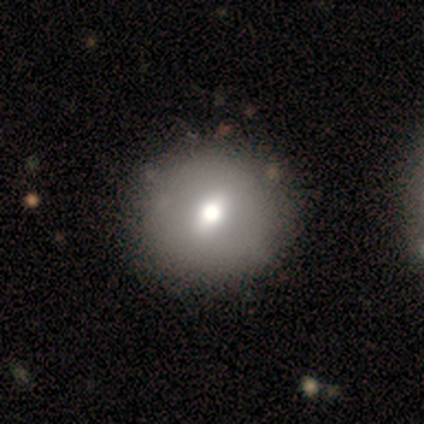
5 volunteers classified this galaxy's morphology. Smooth or featured? smooth (40%, tied with featured or disk)
How rounded? round (100%)
Merging? minor disturbance (75%)